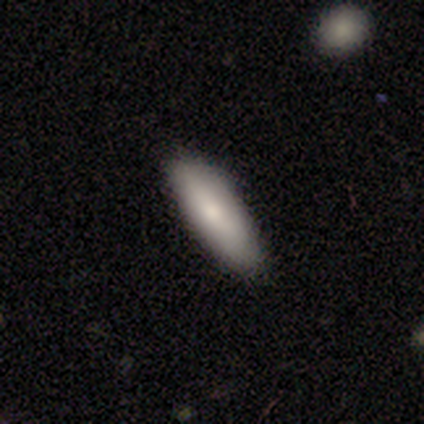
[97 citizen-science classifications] Smooth or featured: smooth — 84% (featured or disk — 11%)
How rounded: in between — 52% (cigar-shaped — 48%)
Merging: none — 92% (minor disturbance — 8%)